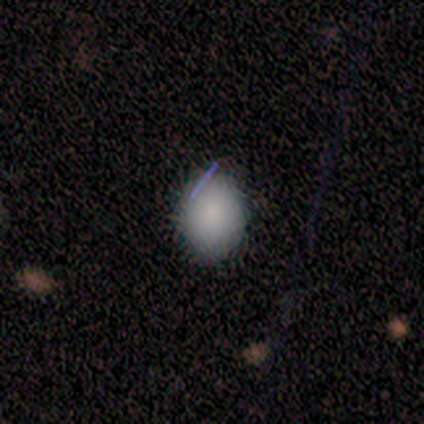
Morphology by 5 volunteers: Smooth or featured?
  - smooth: 100% *
  - featured or disk: 0%
  - star or artifact: 0%
How rounded?
  - in between: 60% *
  - round: 40%
  - cigar-shaped: 0%
Merging?
  - none: 100% *
  - minor disturbance: 0%
  - major disturbance: 0%
  - merger: 0%